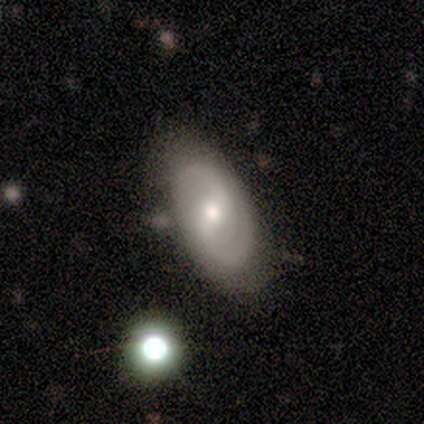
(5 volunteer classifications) A featured or disk galaxy (80%) with a weak bar (50%, tied with no), 2 (100%) medium (100%) spiral arms (50%, tied with no) and a small central bulge (50%). Merging: none (100%).